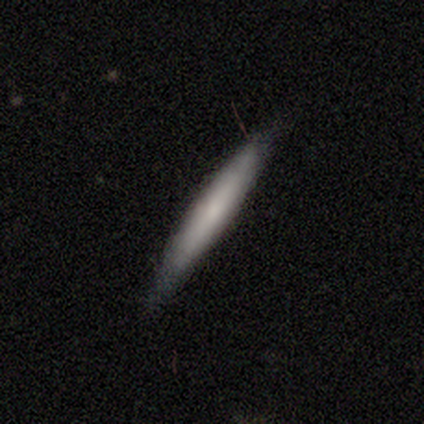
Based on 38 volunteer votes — Smooth or featured: featured or disk — 55% (smooth — 45%)
Edge-on disk: yes — 95% (no — 5%)
Edge-on bulge: none — 50% (rounded — 45%)
Merging: none — 87% (minor disturbance — 11%)